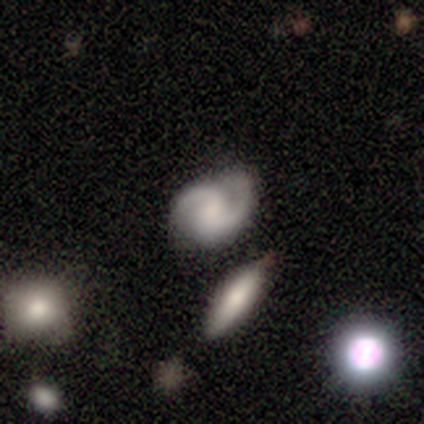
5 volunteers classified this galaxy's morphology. Smooth or featured?
  - featured or disk: 80% *
  - smooth: 20%
  - star or artifact: 0%
Edge-on disk?
  - no: 100% *
  - yes: 0%
Bar?
  - weak: 75% *
  - no: 25%
  - strong: 0%
Spiral arms?
  - yes: 100% *
  - no: 0%
Spiral winding?
  - loose: 50% *
  - tight: 25%
  - medium: 25%
Spiral arm count?
  - 2: 75% *
  - can't tell: 25%
  - 1: 0%
  - 3: 0%
  - 4: 0%
  - more than 4: 0%
Bulge size?
  - none: 50% *
  - moderate: 25%
  - small: 25%
  - dominant: 0%
  - large: 0%
Merging?
  - none: 100% *
  - minor disturbance: 0%
  - major disturbance: 0%
  - merger: 0%